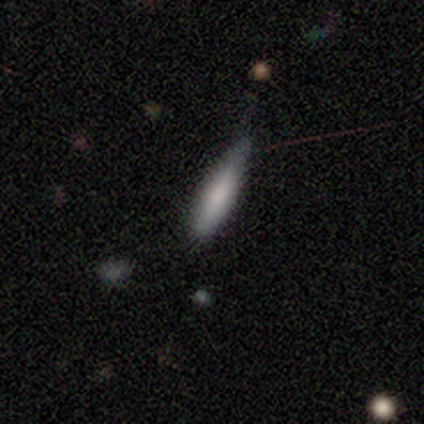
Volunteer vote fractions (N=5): Volunteers were most divided on "merging": none: 80%, minor disturbance: 20%, major disturbance: 0%, merger: 0%. More confident: smooth or featured — smooth (100%); how rounded — cigar-shaped (100%).